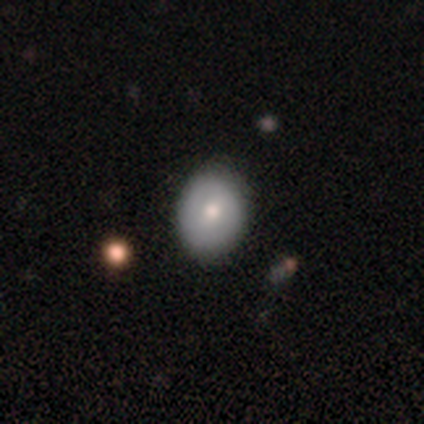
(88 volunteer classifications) A smooth galaxy with no disk features (56%) that is round (63%).

Vote fractions:
- Smooth or featured? smooth: 56% / featured or disk: 35% / star or artifact: 9%
- How rounded? round: 63% / in between: 37% / cigar-shaped: 0%
- Merging? none: 85% / minor disturbance: 15% / major disturbance: 0% / merger: 0%